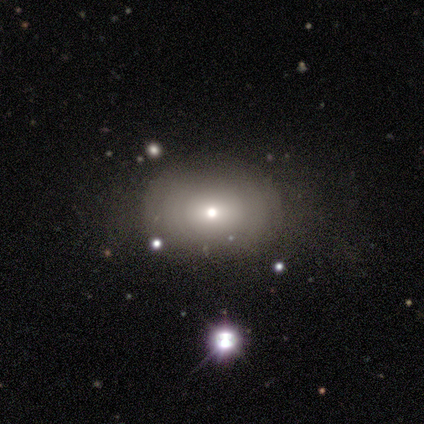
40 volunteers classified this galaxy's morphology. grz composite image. It shows a smooth galaxy with no disk features (57%) that is in between round and cigar-shaped (52%). Merging: none (82%).